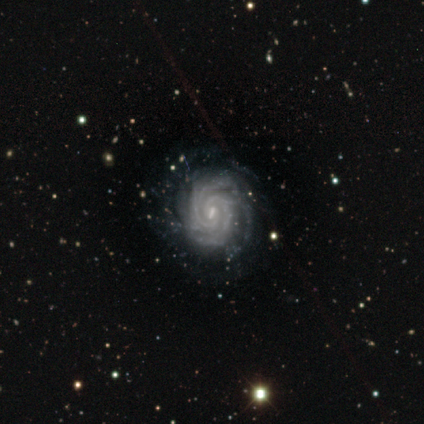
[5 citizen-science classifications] This is clearly a featured or disk galaxy (100%). It is clearly not viewed edge-on (100%). Bar: marginally strong (40%, tied with weak). Spiral arm pattern: clearly yes (100%). Spiral arm count: marginally more than 4 (40%). Spiral winding: clearly tight (100%). Central bulge: clearly small (80%). Merging: clearly none (100%).